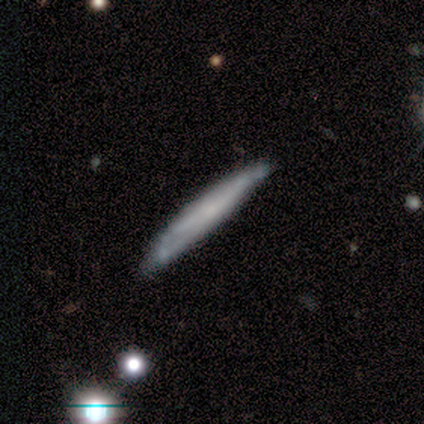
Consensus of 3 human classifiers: featured or disk 67%, smooth 33%, star or artifact 0%. Down the decision tree: edge-on disk — yes (100%); edge-on bulge — boxy (50%, tied with none); merging — minor disturbance (67%).